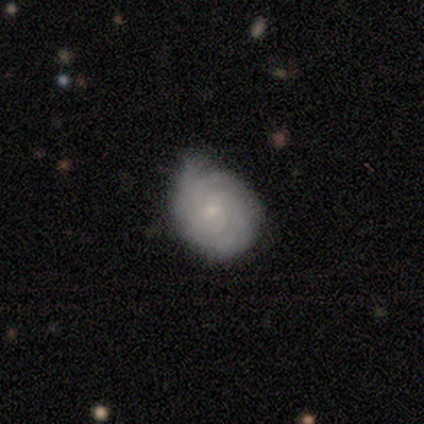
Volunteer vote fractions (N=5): Smooth or featured: featured or disk — 60% (smooth — 40%)
Edge-on disk: no — 100%
Bar: no — 67% (weak — 33%)
Spiral arms: yes — 100%
Spiral winding: tight — 100%
Spiral arm count: 3 — 67% (can't tell — 33%)
Bulge size: small — 100%
Merging: minor disturbance — 60% (none — 40%)